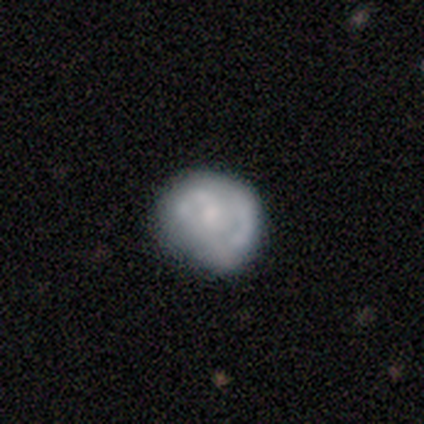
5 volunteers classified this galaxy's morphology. Q: Smooth or featured?
A: smooth (60%); runner-up: featured or disk (40%)
Q: How rounded?
A: round (67%); runner-up: in between (33%)
Q: Merging?
A: none (40%); tied with: major disturbance (40%)